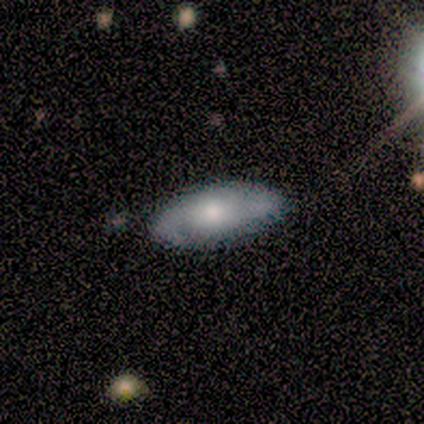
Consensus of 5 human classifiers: smooth-or-featured: featured or disk: 60% | smooth: 40% | star or artifact: 0%
  disk-edge-on: no: 100% | yes: 0%
    bar: no: 67% | weak: 33% | strong: 0%
    has-spiral-arms: yes: 100% | no: 0%
      spiral-winding: medium: 67% | loose: 33% | tight: 0%
      spiral-arm-count: 2: 67% | can't tell: 33% | 1: 0% | 3: 0% | 4: 0% | more than 4: 0%
    bulge-size: moderate: 67% | none: 33% | dominant: 0% | large: 0% | small: 0%
  merging: none: 80% | minor disturbance: 20% | major disturbance: 0% | merger: 0%